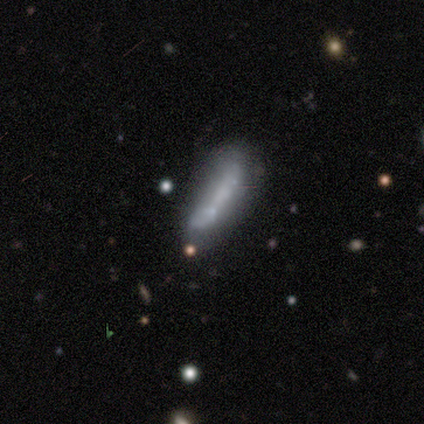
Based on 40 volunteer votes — This is marginally a featured or disk galaxy (42%). It is possibly not viewed edge-on (59%). Bar: likely no (70%). Spiral arm pattern: clearly no (100%). Central bulge: clearly none (90%). Merging: possibly none (45%).